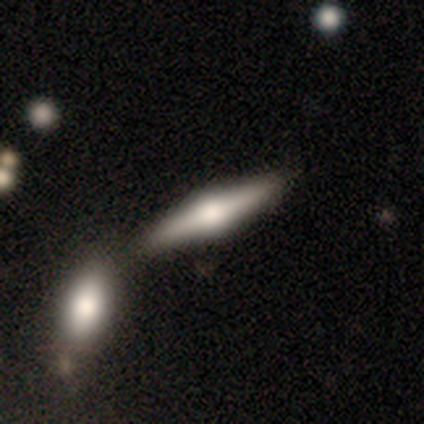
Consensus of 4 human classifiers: Overall: featured or disk (100%). Edge-on disk: yes (75%). Edge-on bulge: rounded (100%). Merging: none (50%, tied with minor disturbance).